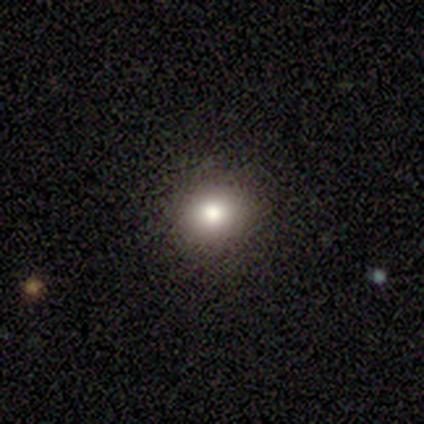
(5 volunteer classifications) Smooth or featured? 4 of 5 (80%) said smooth. How rounded? 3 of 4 (75%) said round. Merging? 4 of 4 (100%) said none.